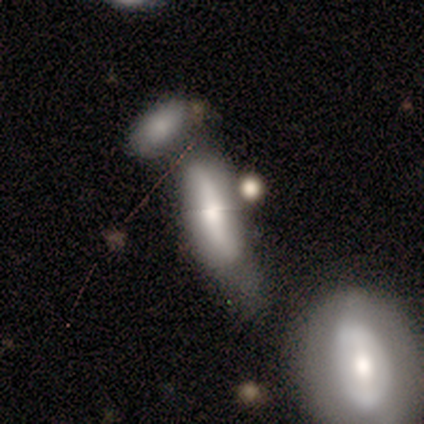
Smooth or featured? 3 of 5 (60%) said smooth. How rounded? 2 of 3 (67%) said in between. Merging? 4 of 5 (80%) said merger.